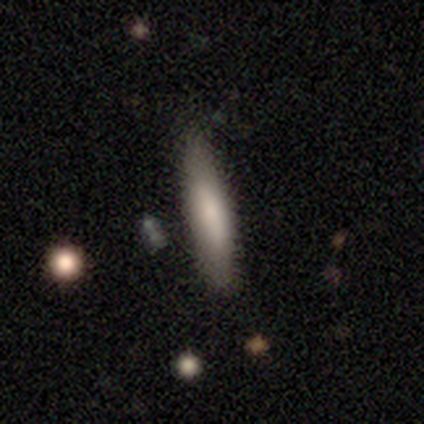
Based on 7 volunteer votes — Volunteers were most divided on "merging": none: 71%, minor disturbance: 29%, major disturbance: 0%, merger: 0%. More confident: how rounded — cigar-shaped (100%); smooth or featured — smooth (86%).